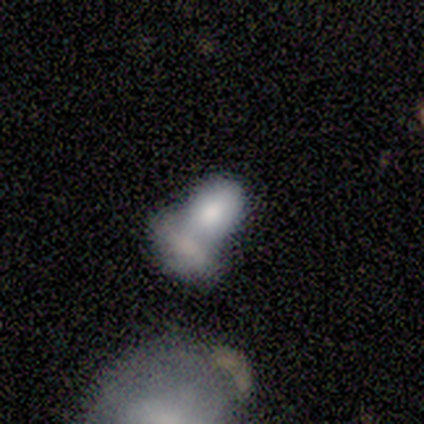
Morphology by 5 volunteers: smooth_or_featured: smooth (p=1.00)
how_rounded: in between (p=1.00)
merging: merger (p=0.80) [alt: none p=0.20]